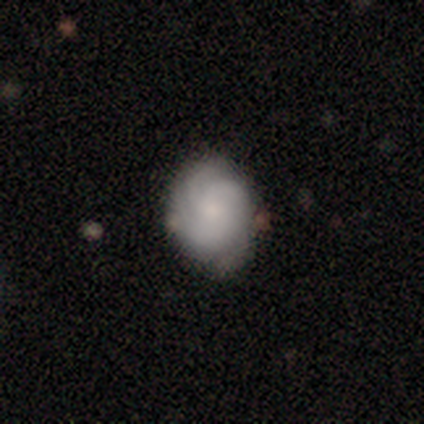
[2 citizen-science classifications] Volunteers were most divided on "spiral arm count" (2-way tie): 4: 50%, can't tell: 50%, 1: 0%, 2: 0%, 3: 0%, more than 4: 0%. More confident: smooth or featured — featured or disk (100%); edge-on disk — no (100%); bar — no (100%); spiral arms — yes (100%); spiral winding — tight (100%); bulge size — small (100%); merging — none (100%).